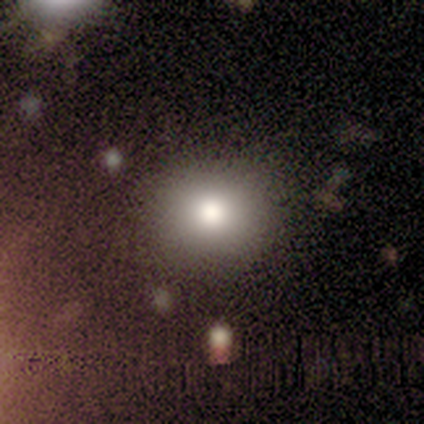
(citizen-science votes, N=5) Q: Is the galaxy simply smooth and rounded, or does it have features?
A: star or artifact — 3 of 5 (60%).